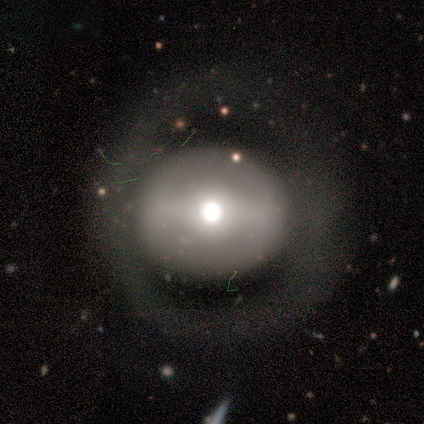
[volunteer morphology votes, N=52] A featured or disk galaxy (56%) with a strong bar (55%), no spiral arms (86%) and a moderate central bulge (52%).

Vote fractions:
- Smooth or featured? featured or disk: 56% / smooth: 31% / star or artifact: 13%
- Edge-on disk? no: 100% / yes: 0%
- Bar? strong: 55% / no: 28% / weak: 17%
- Spiral arms? no: 86% / yes: 14%
- Bulge size? moderate: 52% / large: 38% / dominant: 7% / small: 3% / none: 0%
- Merging? none: 76% / minor disturbance: 11% / major disturbance: 11% / merger: 2%